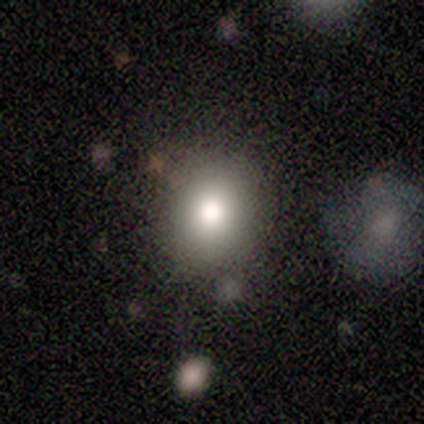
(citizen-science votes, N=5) A smooth galaxy with no disk features (100%) that is round (80%). Merging: none (60%).